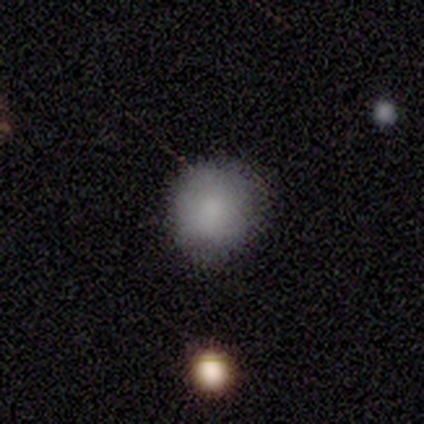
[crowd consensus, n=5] Smooth or featured? 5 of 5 (100%) said smooth. How rounded? 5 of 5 (100%) said round. Merging? 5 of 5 (100%) said none.